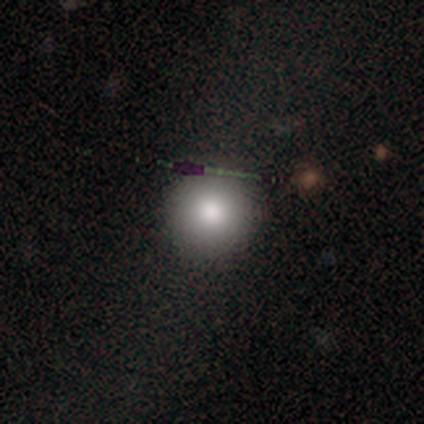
This is clearly a smooth galaxy (84%). How rounded: clearly round (100%). Merging: possibly none (55%).